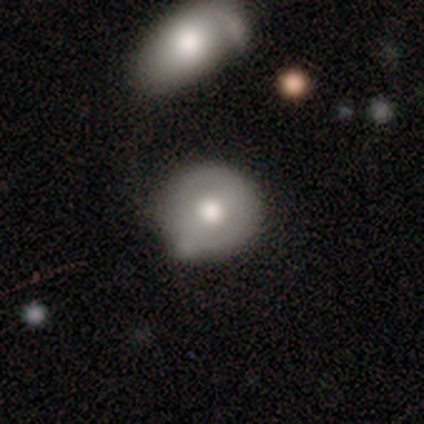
Overall: smooth (60%; featured or disk 40%). How rounded: round (100%). Merging: none (80%).